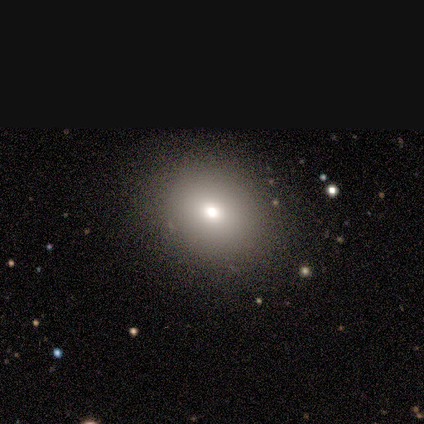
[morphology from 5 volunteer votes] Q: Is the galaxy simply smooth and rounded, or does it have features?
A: smooth — 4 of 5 (80%).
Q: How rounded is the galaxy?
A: round — 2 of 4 (50%, tied with in between).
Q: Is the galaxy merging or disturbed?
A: none — 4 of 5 (80%).